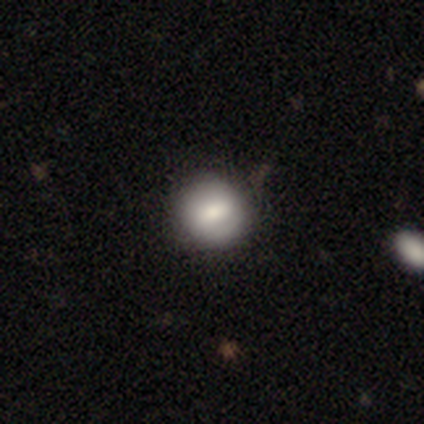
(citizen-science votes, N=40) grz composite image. It shows a smooth galaxy with no disk features (72%) that is round (93%). Merging: none (68%).